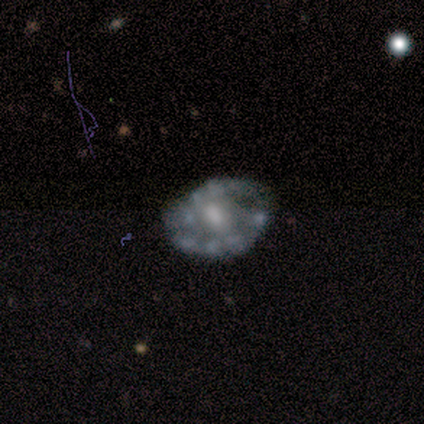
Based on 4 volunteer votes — Morphology: type=featured or disk (50%); edge-on=no (100%); bar=no (100%); spiral arms=no (100%); bulge=moderate (100%); merging=none (100%).